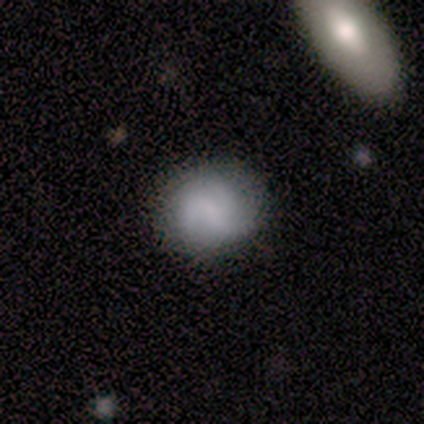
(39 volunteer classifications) Smooth or featured: smooth — 56% (featured or disk — 41%)
How rounded: round — 59% (in between — 36%)
Merging: none — 53% (minor disturbance — 13%)